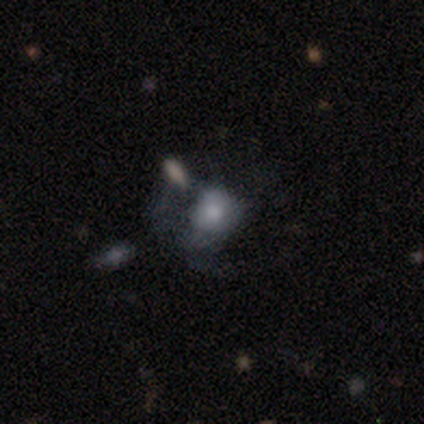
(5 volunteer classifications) Volunteers were most divided on "how rounded" (2-way tie): round: 50%, in between: 50%, cigar-shaped: 0%; "merging" (2-way tie): none: 40%, minor disturbance: 40%, merger: 20%, major disturbance: 0%. More confident: smooth or featured — smooth (80%).